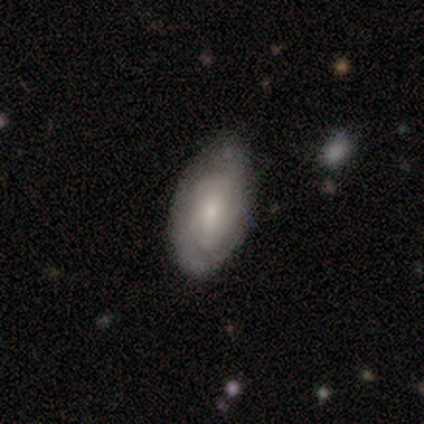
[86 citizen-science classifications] smooth_or_featured: featured or disk (p=0.52) [alt: smooth p=0.42]
disk_edge_on: no (p=1.00)
bar: no (p=0.67) [alt: weak p=0.24]
has_spiral_arms: yes (p=0.78) [alt: no p=0.22]
spiral_winding: tight (p=0.74) [alt: medium p=0.26]
spiral_arm_count: can't tell (p=0.57) [alt: 2 p=0.23]
bulge_size: small (p=0.56) [alt: moderate p=0.38]
merging: none (p=0.62) [alt: minor disturbance p=0.33]